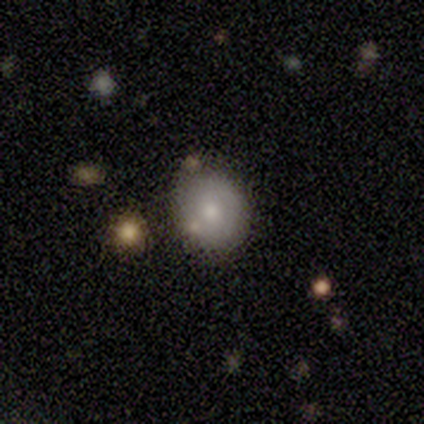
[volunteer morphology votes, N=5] Smooth or featured: featured or disk — 60% (smooth — 40%)
Edge-on disk: no — 67% (yes — 33%)
Bar: no — 100%
Spiral arms: yes — 50% (tied with no — 50%)
Spiral winding: tight — 100%
Spiral arm count: can't tell — 100%
Bulge size: moderate — 100%
Merging: none — 80% (minor disturbance — 20%)